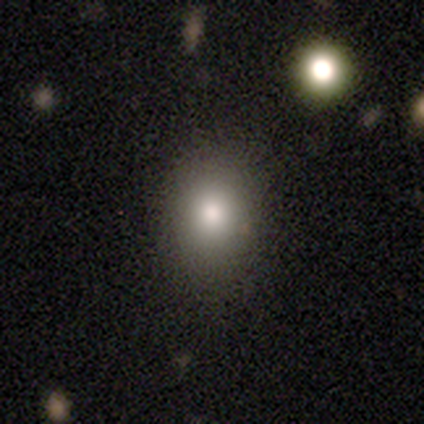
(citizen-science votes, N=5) A smooth galaxy with no disk features (100%) that is in between round and cigar-shaped (60%). Merging: none (80%).